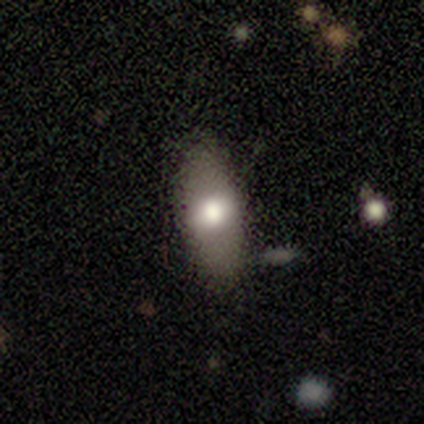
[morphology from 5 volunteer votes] smooth-or-featured: smooth: 100% | featured or disk: 0% | star or artifact: 0%
  how-rounded: in between: 80% | cigar-shaped: 20% | round: 0%
  merging: none: 80% | minor disturbance: 20% | major disturbance: 0% | merger: 0%